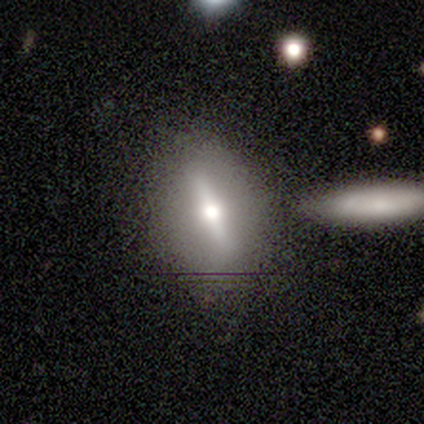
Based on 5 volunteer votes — Volunteers were most divided on "smooth or featured": smooth: 60%, featured or disk: 40%, star or artifact: 0%. More confident: how rounded — in between (100%); merging — none (60%).